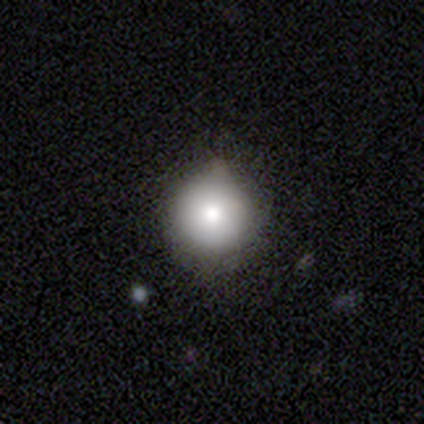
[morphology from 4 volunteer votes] Smooth or featured? smooth (100%)
How rounded? round (100%)
Merging? none (100%)